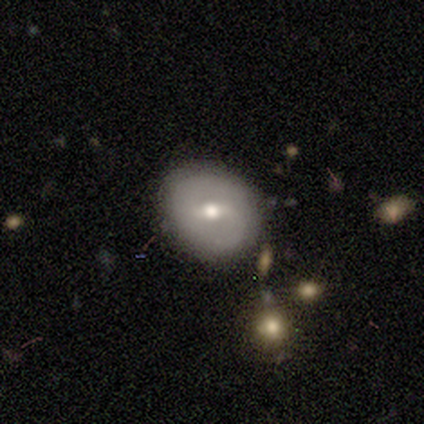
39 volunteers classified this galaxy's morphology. This appears to be a featured or disk galaxy (51%) with a weak bar (60%), 2 (87%) medium (47%, tied with loose) spiral arms (75%) and a moderate central bulge (65%). Merging: none (78%).